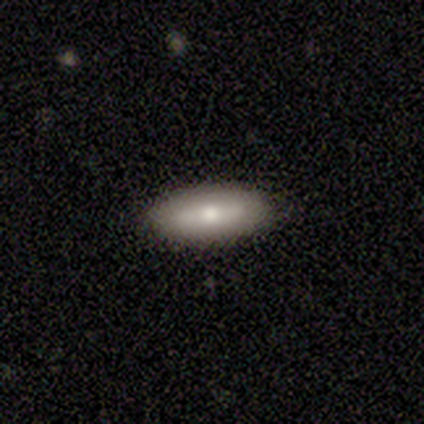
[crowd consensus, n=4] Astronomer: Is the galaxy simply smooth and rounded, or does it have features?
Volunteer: smooth — 50%, tied with featured or disk at 50%.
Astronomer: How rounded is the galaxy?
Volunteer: in between — 100%.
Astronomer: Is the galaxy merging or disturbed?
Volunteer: none — 100%.